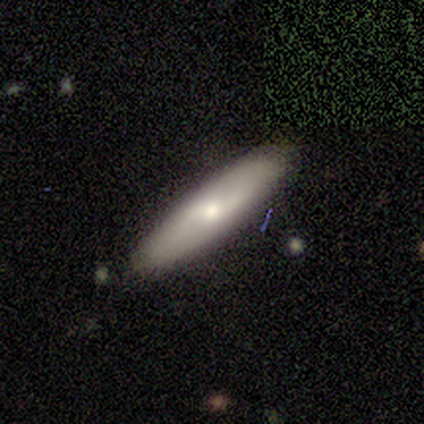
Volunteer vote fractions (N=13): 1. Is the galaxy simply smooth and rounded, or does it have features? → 62% smooth, 38% featured or disk, 0% star or artifact.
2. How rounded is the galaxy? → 100% cigar-shaped, 0% round, 0% in between.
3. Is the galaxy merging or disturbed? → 92% none, 8% minor disturbance, 0% major disturbance, 0% merger.